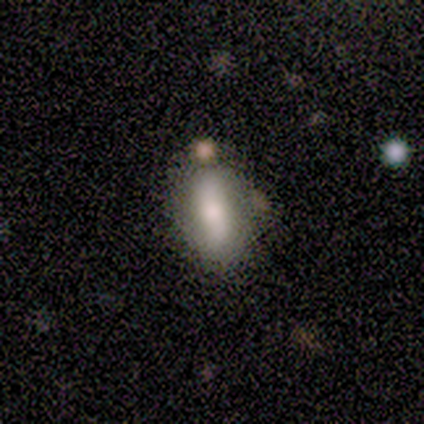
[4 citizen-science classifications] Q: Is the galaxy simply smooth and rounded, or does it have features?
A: smooth — 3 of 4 (75%).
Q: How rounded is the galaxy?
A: in between — 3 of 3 (100%).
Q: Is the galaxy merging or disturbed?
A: none — 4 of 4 (100%).